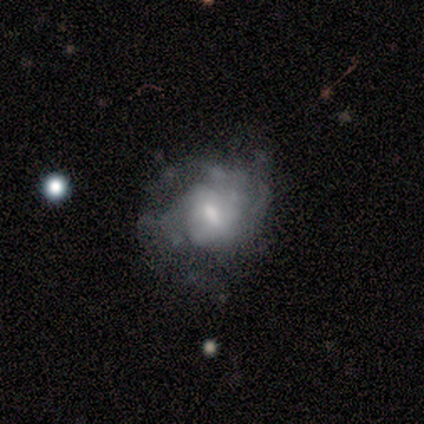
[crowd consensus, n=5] Morphology: type=featured or disk (100%); edge-on=no (100%); bar=weak (100%); spiral arms=no (60%); bulge=moderate (60%); merging=none (40%, tied with minor disturbance).